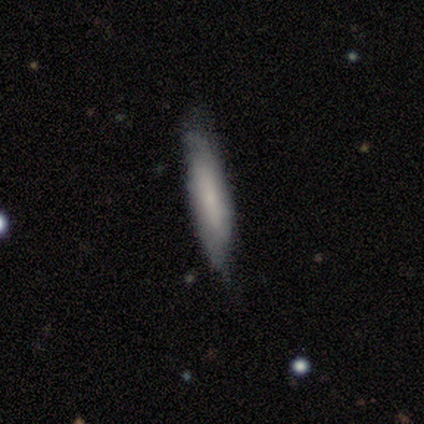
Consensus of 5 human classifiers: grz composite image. It shows a smooth galaxy with no disk features (100%) that is cigar-shaped (80%). Merging: none (80%).